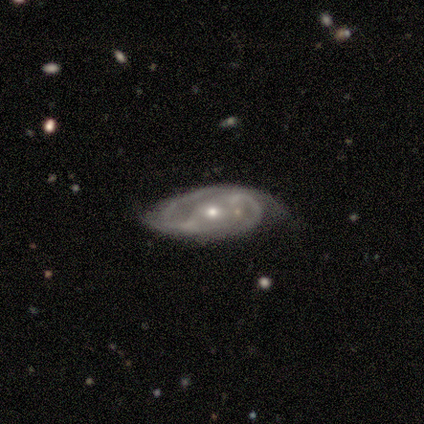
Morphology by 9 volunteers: Smooth or featured?
  - featured or disk: 100% *
  - smooth: 0%
  - star or artifact: 0%
Edge-on disk?
  - no: 100% *
  - yes: 0%
Bar?
  - no: 56% *
  - strong: 22%
  - weak: 22%
Spiral arms?
  - yes: 89% *
  - no: 11%
Spiral winding?
  - medium: 50% *
  - tight: 38%
  - loose: 12%
Spiral arm count?
  - 2: 100% *
  - 1: 0%
  - 3: 0%
  - 4: 0%
  - more than 4: 0%
  - can't tell: 0%
Bulge size?
  - small: 78% *
  - moderate: 22%
  - dominant: 0%
  - large: 0%
  - none: 0%
Merging?
  - none: 89% *
  - minor disturbance: 11%
  - major disturbance: 0%
  - merger: 0%